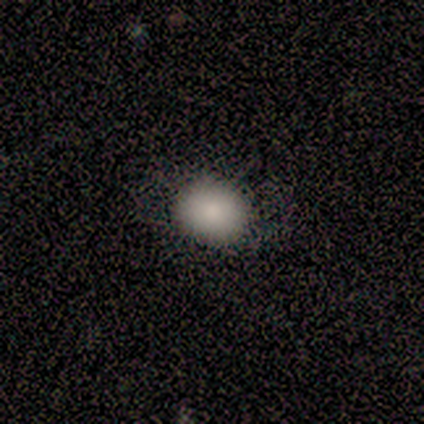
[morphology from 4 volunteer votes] smooth_or_featured: smooth (p=1.00)
how_rounded: round (p=0.75) [alt: in between p=0.25]
merging: none (p=0.75) [alt: major disturbance p=0.25]